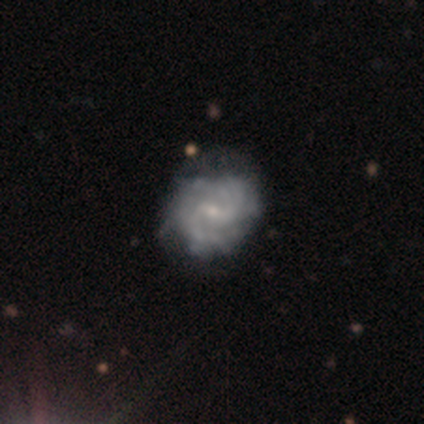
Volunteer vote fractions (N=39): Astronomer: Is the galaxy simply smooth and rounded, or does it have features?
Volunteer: featured or disk — 92%.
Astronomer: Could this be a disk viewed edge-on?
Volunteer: no — 97%.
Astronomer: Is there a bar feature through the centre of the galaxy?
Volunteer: weak — 60%.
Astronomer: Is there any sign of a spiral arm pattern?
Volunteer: yes — 91%.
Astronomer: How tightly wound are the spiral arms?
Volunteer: tight — 44% (runner-up: medium, 41%).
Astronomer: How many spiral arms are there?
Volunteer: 2 — 59%.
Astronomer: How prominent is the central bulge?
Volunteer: small — 74%.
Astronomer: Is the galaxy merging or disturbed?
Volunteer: none — 55%.